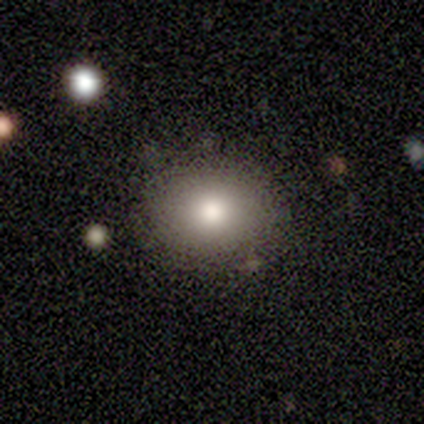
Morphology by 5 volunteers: Smooth or featured? smooth (80%)
How rounded? round (50%, tied with in between)
Merging? none (100%)